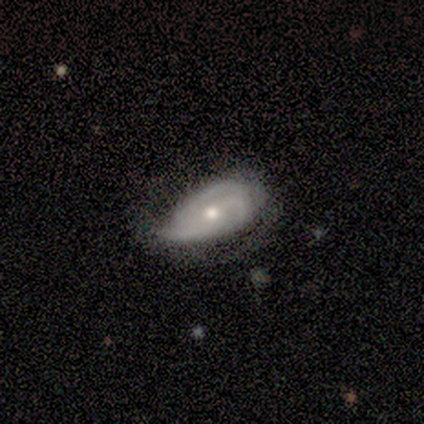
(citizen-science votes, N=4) This appears to be a featured or disk galaxy (75%) with no bar (67%), no spiral arms (67%) and a moderate central bulge (100%). Merging: none (67%).